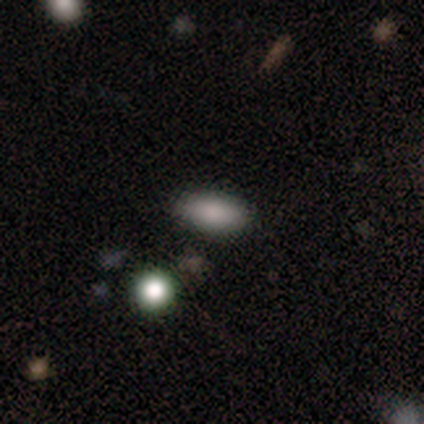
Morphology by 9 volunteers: Smooth or featured? 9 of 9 (100%) said smooth. How rounded? 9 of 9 (100%) said in between. Merging? 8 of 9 (89%) said none.